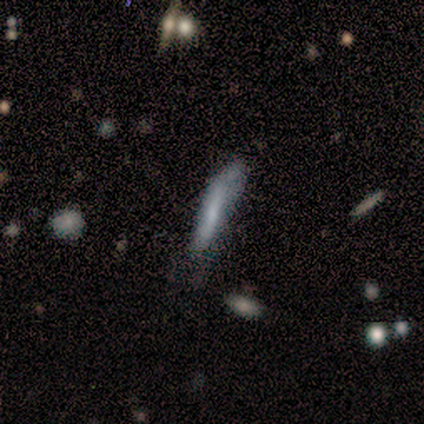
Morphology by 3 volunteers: smooth-or-featured: featured or disk: 67% | smooth: 33% | star or artifact: 0%
  disk-edge-on: yes: 50% (tied) | no: 50% (tied)
    edge-on-bulge: none: 100% | boxy: 0% | rounded: 0%
  merging: none: 67% | merger: 33% | minor disturbance: 0% | major disturbance: 0%